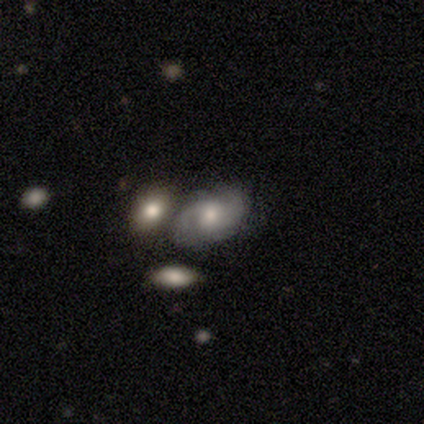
Smooth or featured? 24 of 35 (69%) said featured or disk. Edge-on disk? 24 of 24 (100%) said no. Bar? 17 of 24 (71%) said no. Spiral arms? 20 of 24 (83%) said yes. Spiral winding? 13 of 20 (65%) said medium. Spiral arm count? 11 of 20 (55%) said 2. Bulge size? 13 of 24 (54%) said moderate. Merging? 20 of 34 (59%) said merger.